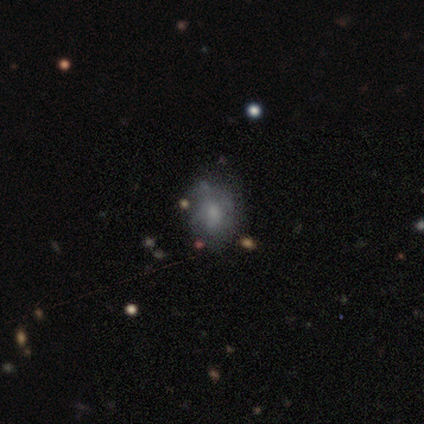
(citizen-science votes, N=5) Morphology: type=smooth (60%); roundness=round (67%); merging=none (75%).